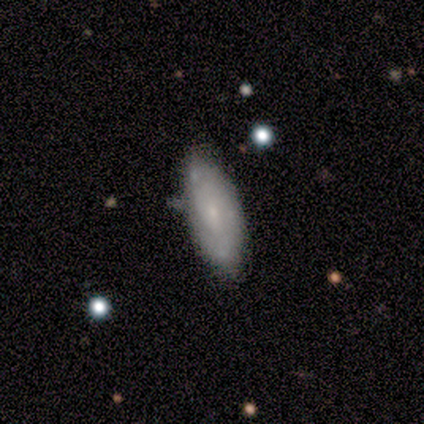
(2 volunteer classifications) Morphology: type=featured or disk (100%); edge-on=no (100%); bar=no (100%); spiral arms=no (100%); bulge=small (100%); merging=none (100%).